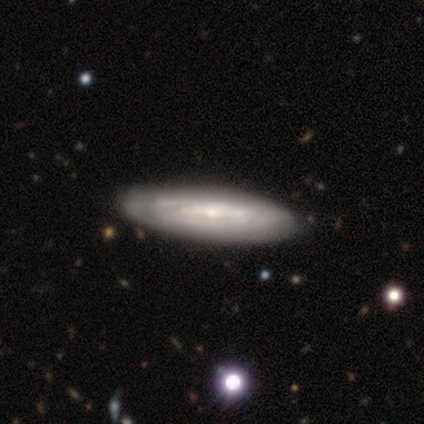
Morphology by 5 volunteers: Q: Smooth or featured?
A: featured or disk (100%)
Q: Edge-on disk?
A: no (60%); runner-up: yes (40%)
Q: Bar?
A: no (67%); runner-up: strong (33%)
Q: Spiral arms?
A: no (100%)
Q: Bulge size?
A: small (67%); runner-up: large (33%)
Q: Merging?
A: none (80%); runner-up: minor disturbance (20%)